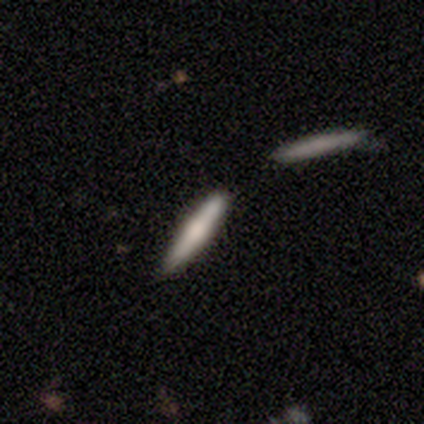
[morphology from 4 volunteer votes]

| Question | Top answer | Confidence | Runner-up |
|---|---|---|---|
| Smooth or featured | smooth | 50% | featured or disk (25%) |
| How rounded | cigar-shaped | 100% | — |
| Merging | none | 67% | minor disturbance (33%) |